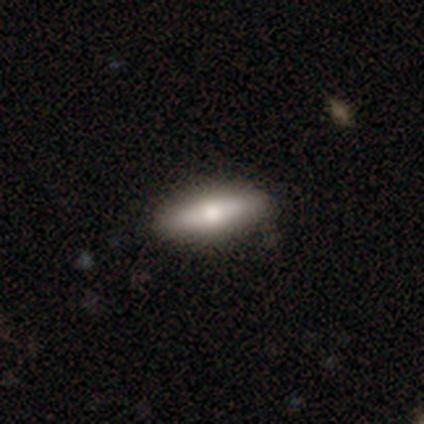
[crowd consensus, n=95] smooth_or_featured: smooth (p=0.68) [alt: featured or disk p=0.24]
how_rounded: cigar-shaped (p=0.54) [alt: in between p=0.45]
merging: none (p=0.84) [alt: minor disturbance p=0.12]